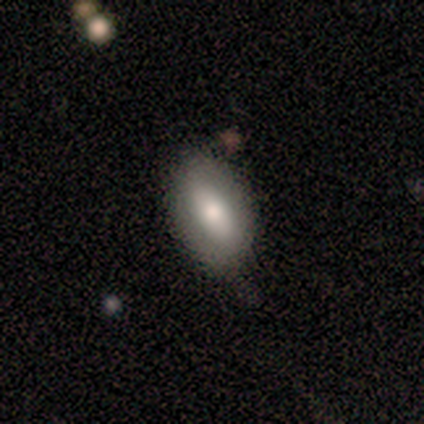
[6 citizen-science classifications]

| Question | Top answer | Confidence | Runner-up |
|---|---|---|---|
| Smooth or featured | smooth | 67% | featured or disk (33%) |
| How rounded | in between | 100% | — |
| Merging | none | 67% | minor disturbance (33%) |